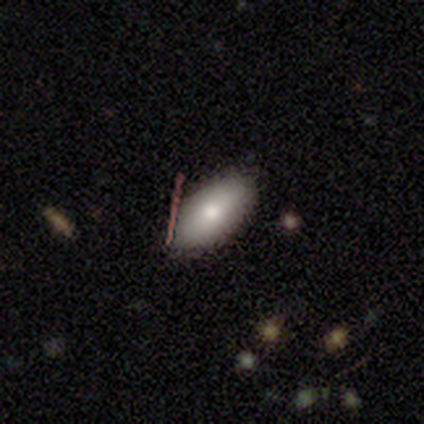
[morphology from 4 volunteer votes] smooth-or-featured: smooth: 100% | featured or disk: 0% | star or artifact: 0%
  how-rounded: in between: 100% | round: 0% | cigar-shaped: 0%
  merging: none: 100% | minor disturbance: 0% | major disturbance: 0% | merger: 0%